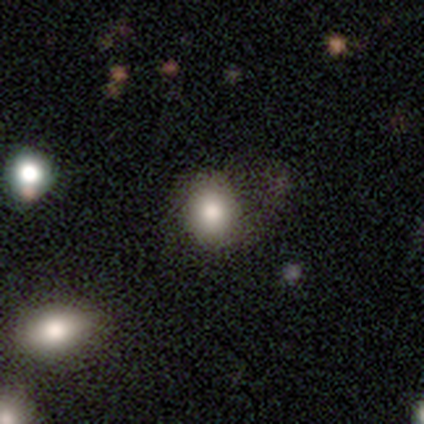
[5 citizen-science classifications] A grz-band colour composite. It shows a smooth galaxy with no disk features (80%) that is round (50%, tied with in between). Merging: minor disturbance (75%).